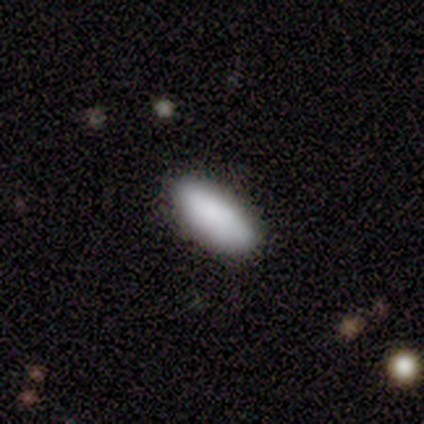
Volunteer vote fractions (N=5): smooth 100%, featured or disk 0%, star or artifact 0%. Down the decision tree: how rounded — in between (80%); merging — none (80%).